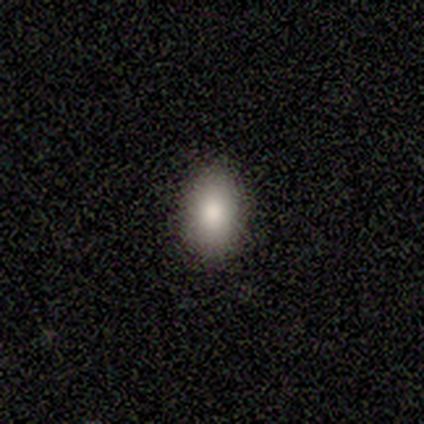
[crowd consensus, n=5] Q: Smooth or featured?
A: smooth (80%); runner-up: featured or disk (20%)
Q: How rounded?
A: in between (100%)
Q: Merging?
A: none (80%); runner-up: minor disturbance (20%)